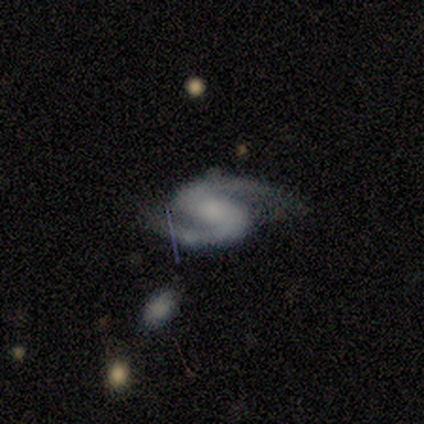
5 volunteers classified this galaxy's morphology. This is clearly a featured or disk galaxy (80%). It is clearly not viewed edge-on (100%). Bar: possibly strong (50%, tied with weak). Spiral arm pattern: clearly yes (100%). Spiral arm count: clearly 2 (100%). Spiral winding: clearly medium (100%). Central bulge: possibly moderate (50%, tied with small). Merging: likely none (75%).